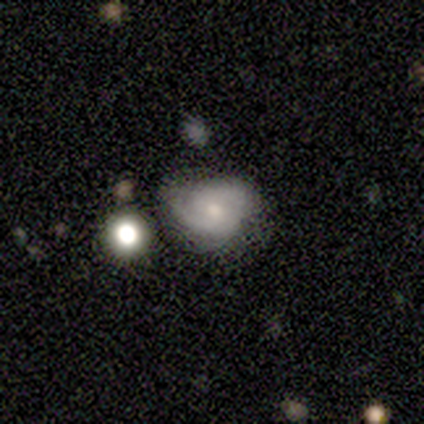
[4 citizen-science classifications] Smooth or featured? 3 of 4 (75%) said featured or disk. Edge-on disk? 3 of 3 (100%) said no. Bar? 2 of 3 (67%) said no. Spiral arms? 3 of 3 (100%) said yes. Spiral winding? 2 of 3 (67%) said tight. Spiral arm count? 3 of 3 (100%) said 2. Bulge size? 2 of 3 (67%) said small. Merging? 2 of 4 (50%) said minor disturbance.